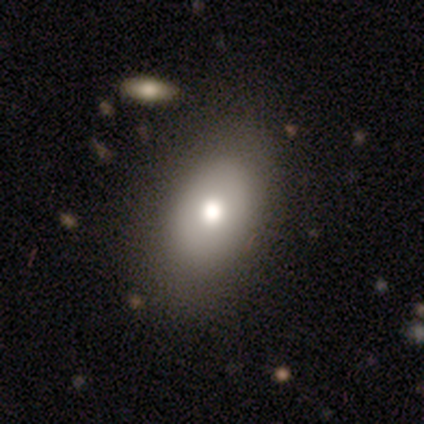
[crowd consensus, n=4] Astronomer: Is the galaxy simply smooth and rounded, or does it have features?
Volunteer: smooth — 100%.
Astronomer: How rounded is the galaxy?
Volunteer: in between — 100%.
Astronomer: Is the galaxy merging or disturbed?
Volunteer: none — 100%.